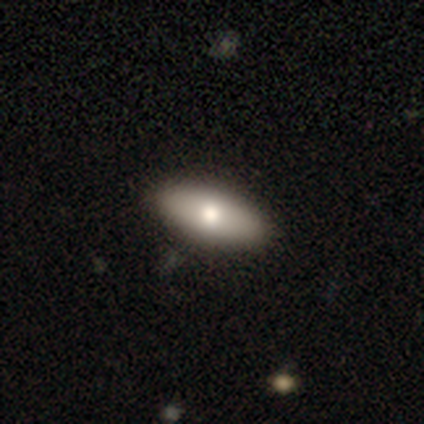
Morphology: type=smooth (82%); roundness=in between (84%); merging=none (95%).